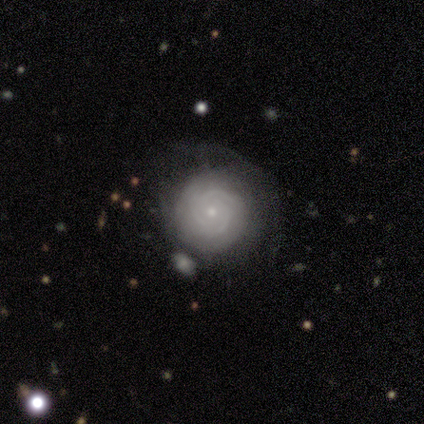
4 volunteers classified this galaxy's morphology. This appears to be a featured or disk galaxy (75%) with no bar (67%), 3 (67%) tight (67%) spiral arms (100%) and a small central bulge (100%). Merging: none (67%).